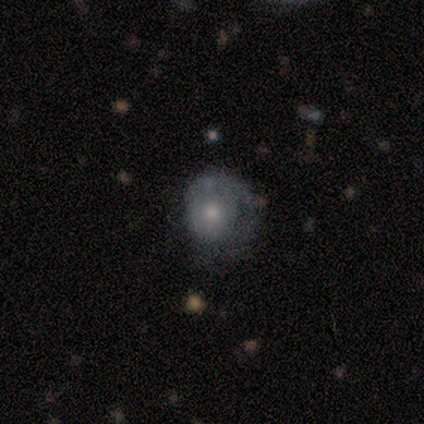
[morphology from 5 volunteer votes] Smooth or featured? 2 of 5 (40%, tied with featured or disk) said smooth. How rounded? 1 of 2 (50%, tied with in between) said round. Merging? 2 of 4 (50%) said minor disturbance.